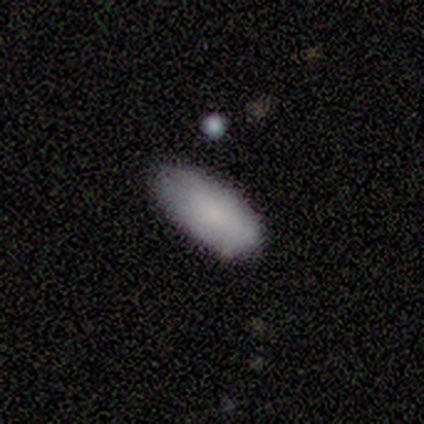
Smooth or featured?
  - smooth: 91% *
  - featured or disk: 9%
  - star or artifact: 0%
How rounded?
  - in between: 90% *
  - cigar-shaped: 10%
  - round: 0%
Merging?
  - none: 82% *
  - minor disturbance: 18%
  - major disturbance: 0%
  - merger: 0%